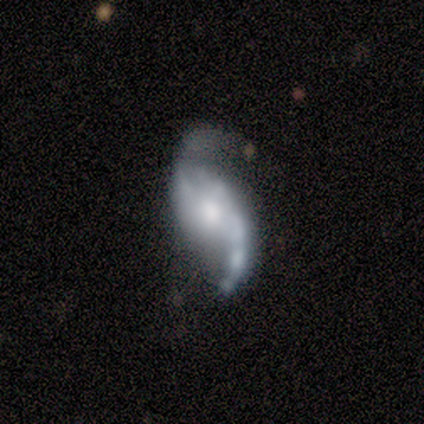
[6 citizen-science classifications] Q: Smooth or featured?
A: featured or disk (83%); runner-up: smooth (17%)
Q: Edge-on disk?
A: no (80%); runner-up: yes (20%)
Q: Bar?
A: no (75%); runner-up: strong (25%)
Q: Spiral arms?
A: yes (100%)
Q: Spiral winding?
A: loose (75%); runner-up: medium (25%)
Q: Spiral arm count?
A: 2 (100%)
Q: Bulge size?
A: small (50%); runner-up: large (25%)
Q: Merging?
A: none (50%); runner-up: minor disturbance (17%)